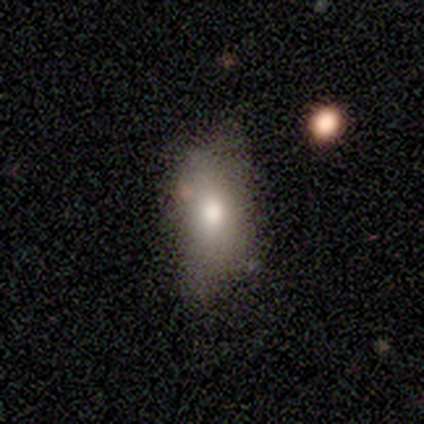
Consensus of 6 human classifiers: Volunteers were most divided on "smooth or featured": smooth: 67%, featured or disk: 33%, star or artifact: 0%. More confident: merging — minor disturbance (83%); how rounded — in between (75%).